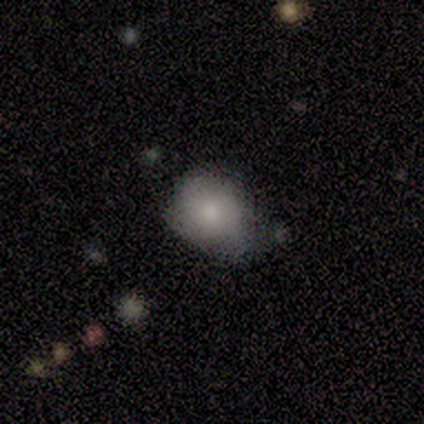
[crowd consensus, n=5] Smooth or featured: smooth — 60% (featured or disk — 40%)
How rounded: in between — 100%
Merging: none — 40% (tied with minor disturbance — 40%)